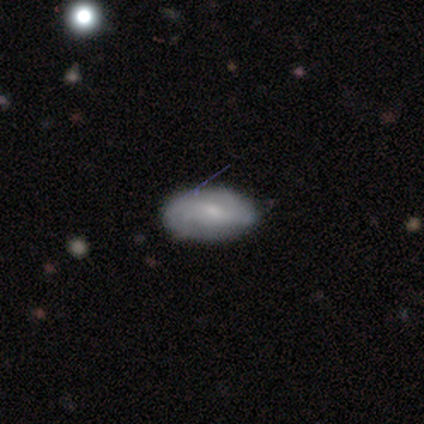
Overall: smooth (46%; featured or disk 41%). How rounded: in between (94%). Merging: none (50%; minor disturbance 18%).